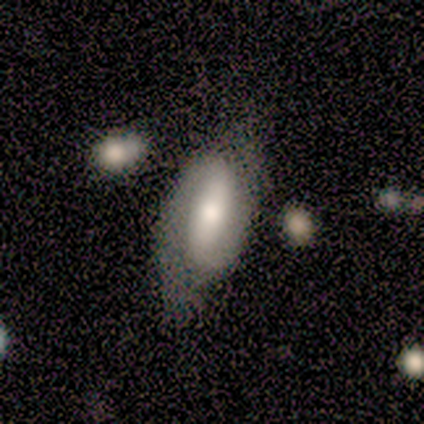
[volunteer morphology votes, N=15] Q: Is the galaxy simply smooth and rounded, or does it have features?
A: featured or disk — 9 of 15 (60%).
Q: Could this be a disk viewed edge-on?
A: no — 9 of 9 (100%).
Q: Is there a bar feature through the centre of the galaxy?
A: strong — 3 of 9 (33%, tied with weak and no).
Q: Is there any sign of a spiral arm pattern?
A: yes — 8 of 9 (89%).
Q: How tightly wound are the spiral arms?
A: medium — 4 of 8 (50%).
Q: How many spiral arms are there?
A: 2 — 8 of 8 (100%).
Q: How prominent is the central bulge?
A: moderate — 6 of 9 (67%).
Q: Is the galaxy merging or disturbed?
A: none — 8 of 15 (53%).